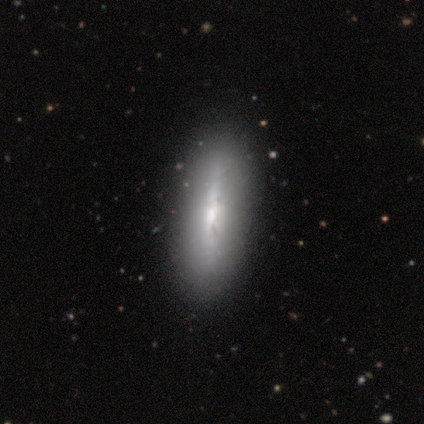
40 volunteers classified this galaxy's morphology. Overall: featured or disk (65%; smooth 32%). Edge-on disk: yes (85%). Edge-on bulge: none (64%; rounded 36%). Merging: none (85%).